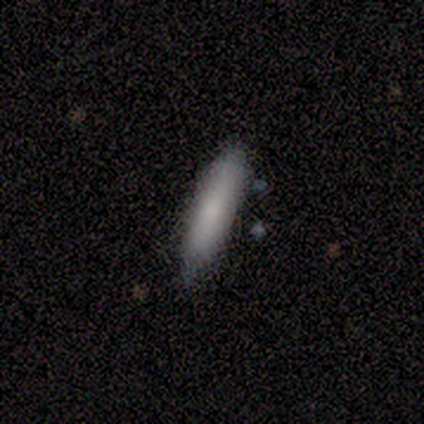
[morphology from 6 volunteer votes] A smooth galaxy with no disk features (100%) that is cigar-shaped (83%).

Vote fractions:
- Smooth or featured? smooth: 100% / featured or disk: 0% / star or artifact: 0%
- How rounded? cigar-shaped: 83% / in between: 17% / round: 0%
- Merging? none: 67% / minor disturbance: 33% / major disturbance: 0% / merger: 0%